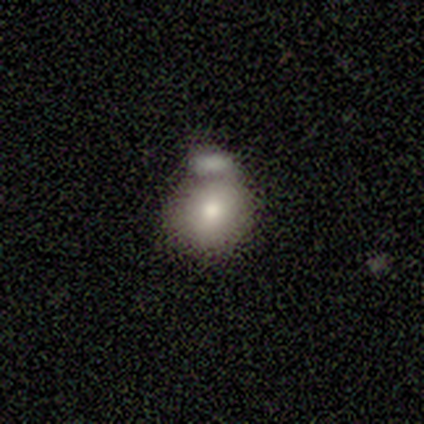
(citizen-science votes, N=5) Smooth or featured? smooth (60%)
How rounded? round (100%)
Merging? none (50%)